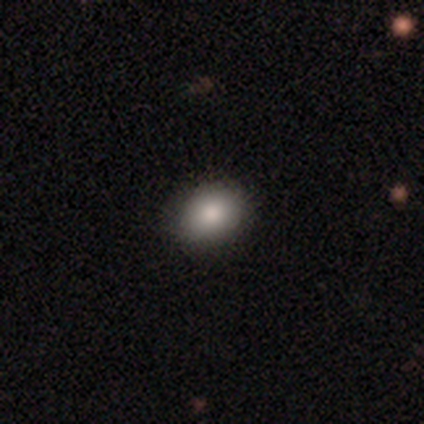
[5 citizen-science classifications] This is clearly a smooth galaxy (100%). How rounded: likely in between (60%). Merging: clearly none (80%).